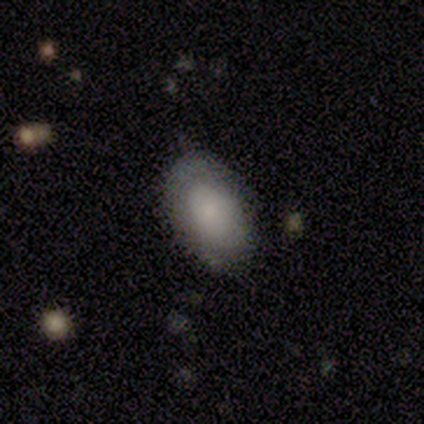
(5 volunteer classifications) This is clearly a smooth galaxy (80%). How rounded: clearly in between (100%). Merging: clearly none (80%).